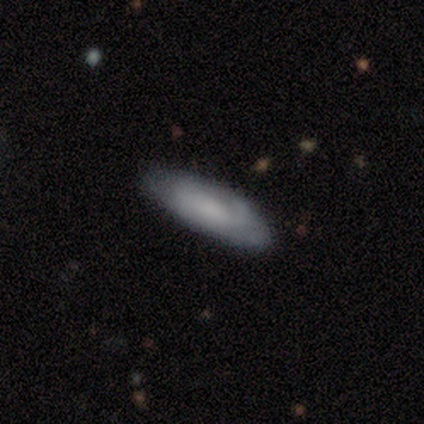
Overall: smooth (60%; featured or disk 20%). How rounded: in between (67%; cigar-shaped 33%). Merging: none (75%).